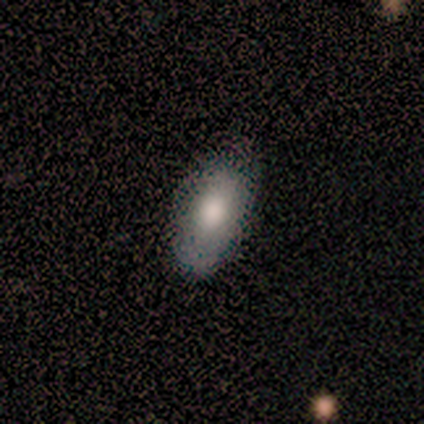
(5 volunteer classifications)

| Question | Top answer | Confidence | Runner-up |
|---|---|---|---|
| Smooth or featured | smooth | 80% | featured or disk (20%) |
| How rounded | in between | 100% | — |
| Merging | none | 100% | — |